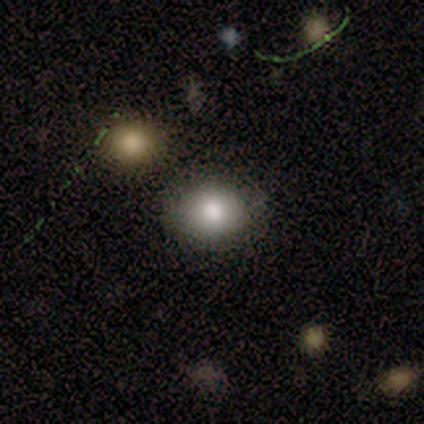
smooth 80%, featured or disk 20%, star or artifact 0%. Down the decision tree: how rounded — round (75%); merging — none (80%).